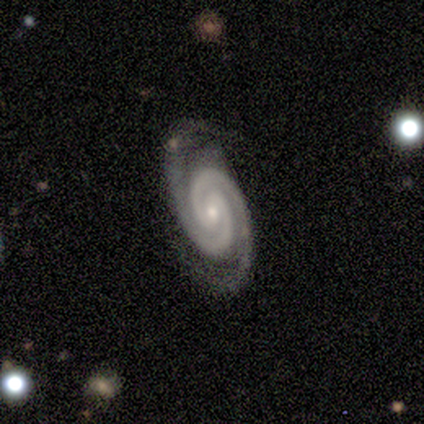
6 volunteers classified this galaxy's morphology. Smooth or featured: featured or disk — 100%
Edge-on disk: no — 100%
Bar: weak — 50% (tied with no — 50%)
Spiral arms: yes — 100%
Spiral winding: tight — 83% (medium — 17%)
Spiral arm count: 2 — 100%
Bulge size: small — 83% (moderate — 17%)
Merging: none — 83% (minor disturbance — 17%)